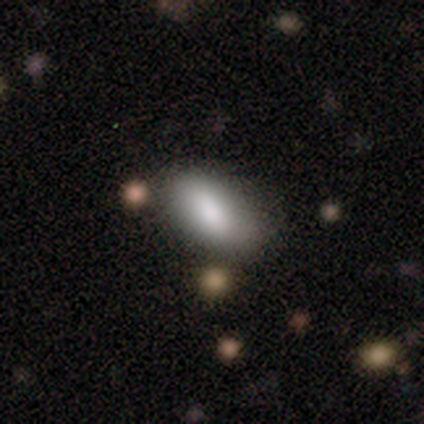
Smooth or featured? smooth (100%)
How rounded? in between (100%)
Merging? none (80%)